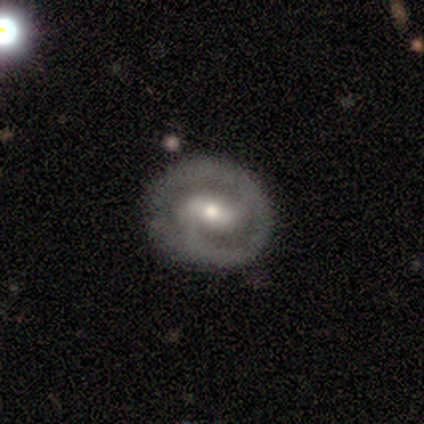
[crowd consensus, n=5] smooth_or_featured: featured or disk (p=1.00)
disk_edge_on: no (p=1.00)
bar: weak (p=0.80) [alt: strong p=0.20]
has_spiral_arms: yes (p=1.00)
spiral_winding: tight (p=0.40) [tied with: medium p=0.40]
spiral_arm_count: 2 (p=0.60) [alt: 1 p=0.40]
bulge_size: moderate (p=0.60) [alt: small p=0.40]
merging: none (p=0.40) [tied with: major disturbance p=0.40]